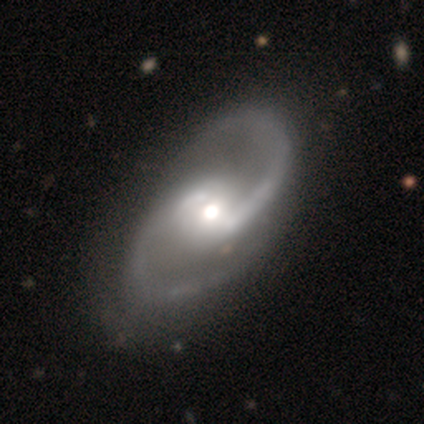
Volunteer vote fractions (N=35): Smooth or featured: featured or disk — 97% (smooth — 3%)
Edge-on disk: no — 100%
Bar: weak — 50% (no — 26%)
Spiral arms: yes — 97% (no — 3%)
Spiral winding: medium — 58% (loose — 33%)
Spiral arm count: 2 — 100%
Bulge size: moderate — 56% (large — 24%)
Merging: none — 57% (minor disturbance — 6%)